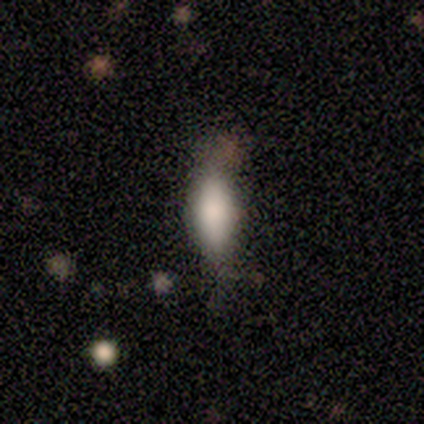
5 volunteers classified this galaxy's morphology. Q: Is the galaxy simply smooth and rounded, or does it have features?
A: smooth — 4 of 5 (80%).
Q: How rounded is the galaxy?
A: in between — 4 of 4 (100%).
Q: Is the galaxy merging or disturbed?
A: none — 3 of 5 (60%).